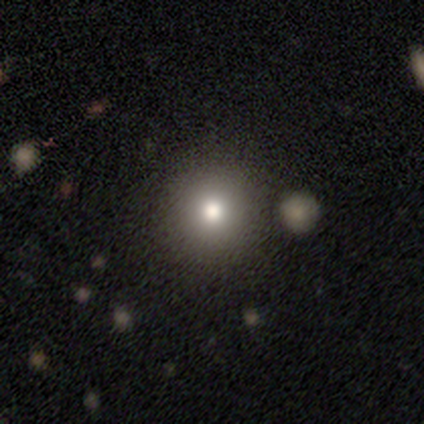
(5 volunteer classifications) A smooth galaxy with no disk features (100%) that is round (100%). Merging: none (80%).